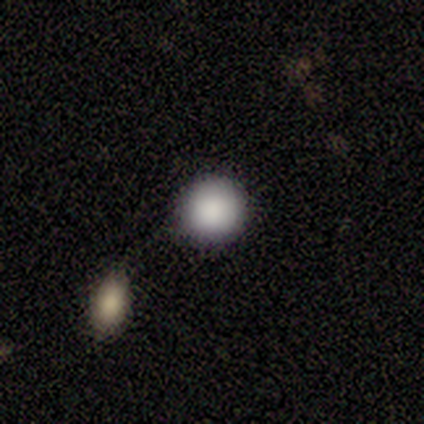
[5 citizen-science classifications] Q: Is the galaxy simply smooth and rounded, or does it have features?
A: smooth — 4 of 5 (80%).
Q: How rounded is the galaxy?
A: round — 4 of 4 (100%).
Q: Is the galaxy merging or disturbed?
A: none — 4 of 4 (100%).